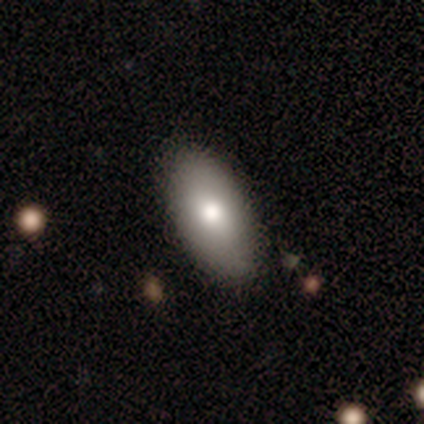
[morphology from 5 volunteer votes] smooth_or_featured: smooth (p=0.60) [alt: featured or disk p=0.40]
how_rounded: in between (p=1.00)
merging: none (p=0.80) [alt: minor disturbance p=0.20]